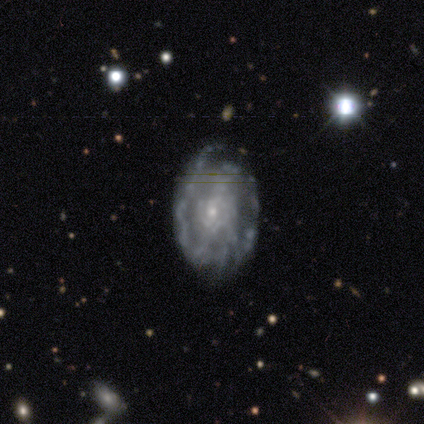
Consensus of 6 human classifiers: A featured or disk galaxy (100%) with no bar (67%), 2 (75%) tight (50%, tied with medium) spiral arms (67%) and a small central bulge (83%). Merging: none (67%).